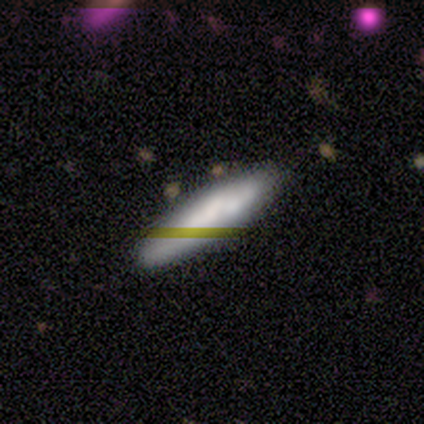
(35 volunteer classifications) Smooth or featured? 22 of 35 (63%) said smooth. How rounded? 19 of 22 (86%) said cigar-shaped. Merging? 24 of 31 (77%) said none.